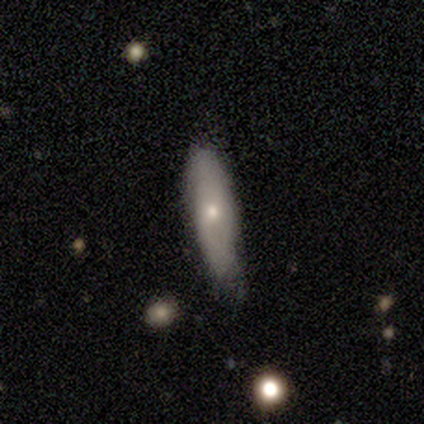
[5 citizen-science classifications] A smooth galaxy with no disk features (80%) that is in between round and cigar-shaped (50%, tied with cigar-shaped).

Vote fractions:
- Smooth or featured? smooth: 80% / featured or disk: 20% / star or artifact: 0%
- How rounded? in between: 50% (tied) / cigar-shaped: 50% (tied) / round: 0%
- Merging? none: 60% / minor disturbance: 40% / major disturbance: 0% / merger: 0%